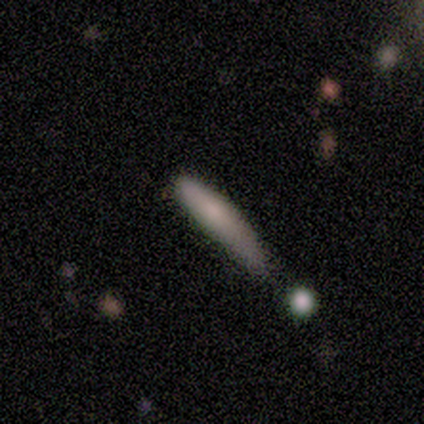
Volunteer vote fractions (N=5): smooth-or-featured: smooth: 80% | star or artifact: 20% | featured or disk: 0%
  how-rounded: cigar-shaped: 75% | in between: 25% | round: 0%
  merging: minor disturbance: 50% | none: 25% | merger: 25% | major disturbance: 0%